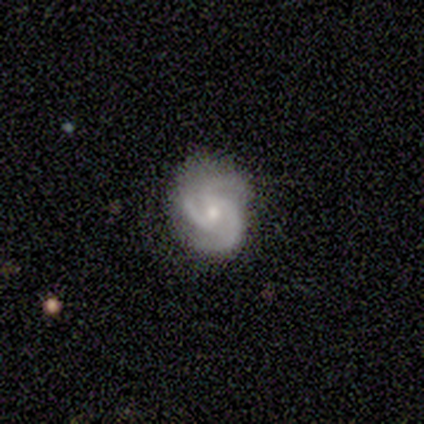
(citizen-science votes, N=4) A featured or disk galaxy (75%) with no bar (100%), 3 (100%) tight (100%) spiral arms (100%) and a moderate central bulge (100%).

Vote fractions:
- Smooth or featured? featured or disk: 75% / smooth: 25% / star or artifact: 0%
- Edge-on disk? no: 100% / yes: 0%
- Bar? no: 100% / strong: 0% / weak: 0%
- Spiral arms? yes: 100% / no: 0%
- Spiral winding? tight: 100% / medium: 0% / loose: 0%
- Spiral arm count? 3: 100% / 1: 0% / 2: 0% / 4: 0% / more than 4: 0% / can't tell: 0%
- Bulge size? moderate: 100% / dominant: 0% / large: 0% / small: 0% / none: 0%
- Merging? none: 100% / minor disturbance: 0% / major disturbance: 0% / merger: 0%